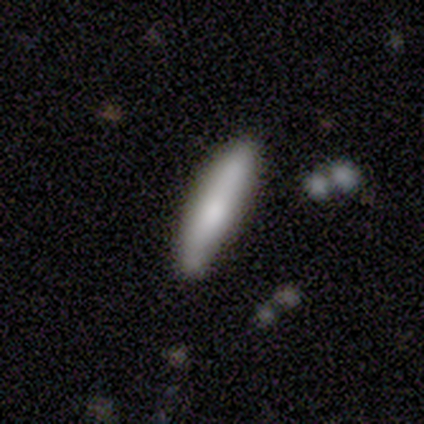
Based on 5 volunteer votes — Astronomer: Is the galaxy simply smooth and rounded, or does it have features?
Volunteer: smooth — 60% (runner-up: featured or disk, 40%).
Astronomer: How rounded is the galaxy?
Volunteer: cigar-shaped — 100%.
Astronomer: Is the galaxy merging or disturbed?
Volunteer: none — 80%.